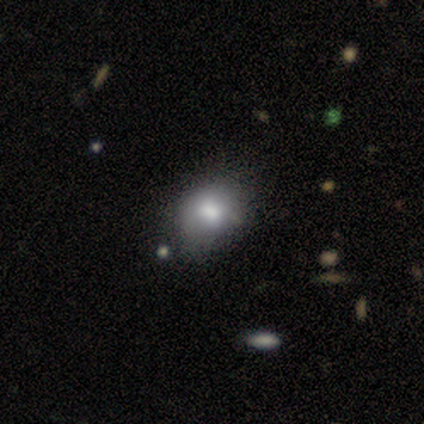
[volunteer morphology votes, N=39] Smooth or featured: smooth — 74% (featured or disk — 15%)
How rounded: in between — 72% (round — 28%)
Merging: none — 34% (minor disturbance — 26%)